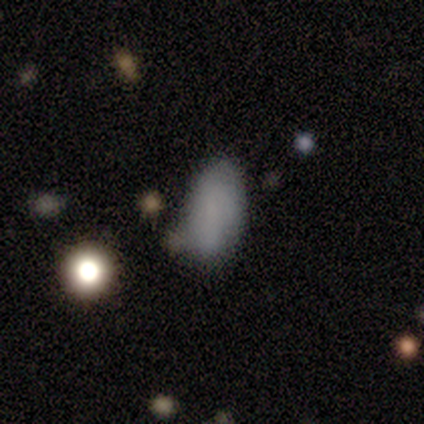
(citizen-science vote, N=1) Smooth or featured? 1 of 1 (100%) said smooth. How rounded? 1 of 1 (100%) said in between. Merging? 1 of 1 (100%) said none.